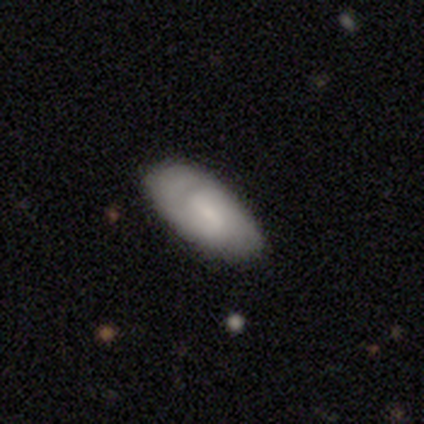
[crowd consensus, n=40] Smooth or featured?
  - featured or disk: 48% *
  - smooth: 40%
  - star or artifact: 12%
Edge-on disk?
  - no: 95% *
  - yes: 5%
Bar?
  - weak: 56% *
  - no: 33%
  - strong: 11%
Spiral arms?
  - yes: 67% *
  - no: 33%
Spiral winding?
  - tight: 42% * (tied)
  - medium: 42% * (tied)
  - loose: 17%
Spiral arm count?
  - 2: 50% *
  - can't tell: 25%
  - 1: 17%
  - 3: 8%
  - 4: 0%
  - more than 4: 0%
Bulge size?
  - small: 67% *
  - moderate: 22%
  - large: 11%
  - dominant: 0%
  - none: 0%
Merging?
  - none: 77% *
  - minor disturbance: 23%
  - major disturbance: 0%
  - merger: 0%